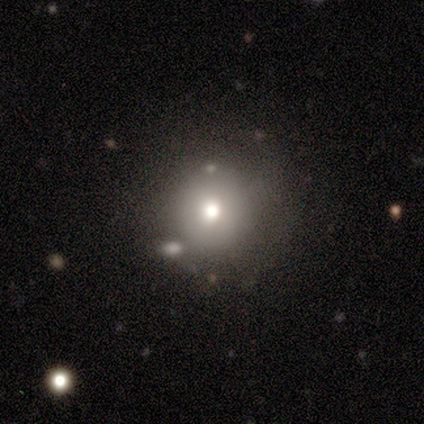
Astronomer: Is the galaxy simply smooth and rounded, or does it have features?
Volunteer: smooth — 67%.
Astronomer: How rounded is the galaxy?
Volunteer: round — 75%.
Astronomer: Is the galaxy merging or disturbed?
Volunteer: none — 67%.